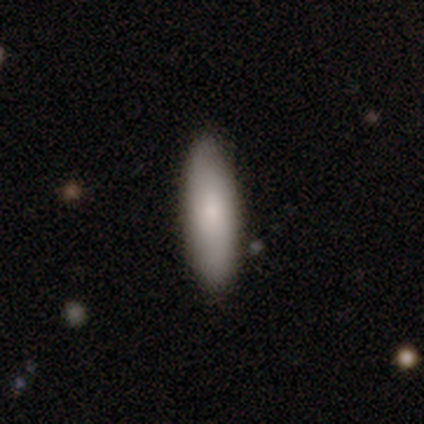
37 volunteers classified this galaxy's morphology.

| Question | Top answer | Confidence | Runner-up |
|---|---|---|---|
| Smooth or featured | smooth | 95% | star or artifact (5%) |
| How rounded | in between | 51% | cigar-shaped (49%) |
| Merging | none | 94% | minor disturbance (6%) |